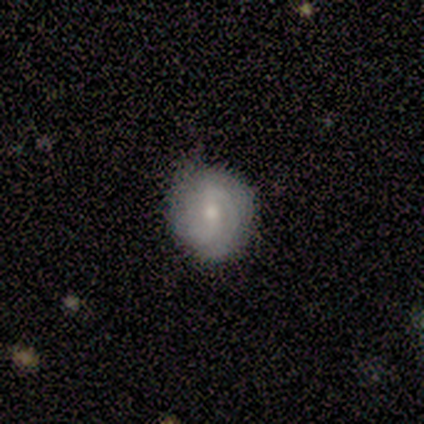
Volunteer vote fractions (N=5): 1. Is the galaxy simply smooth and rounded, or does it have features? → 80% featured or disk, 20% smooth, 0% star or artifact.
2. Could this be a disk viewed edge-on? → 100% no, 0% yes.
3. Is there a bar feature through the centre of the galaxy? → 100% weak, 0% strong, 0% no.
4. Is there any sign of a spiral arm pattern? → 100% yes, 0% no.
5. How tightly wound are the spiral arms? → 75% tight, 25% medium, 0% loose.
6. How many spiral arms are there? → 50% 2 (tied), 50% can't tell (tied), 0% 1, 0% 3, 0% 4, 0% more than 4.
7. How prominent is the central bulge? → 75% small, 25% moderate, 0% dominant, 0% large, 0% none.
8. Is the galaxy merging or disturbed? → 100% none, 0% minor disturbance, 0% major disturbance, 0% merger.